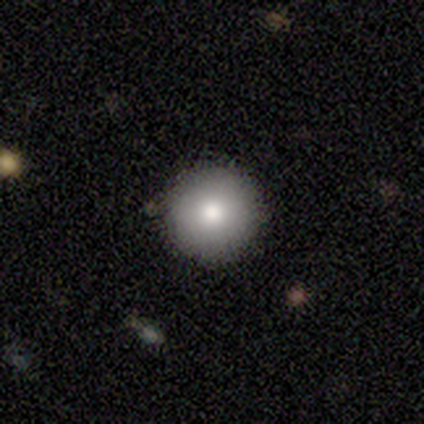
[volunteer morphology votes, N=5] smooth 100%, featured or disk 0%, star or artifact 0%. Down the decision tree: how rounded — round (100%); merging — none (80%).